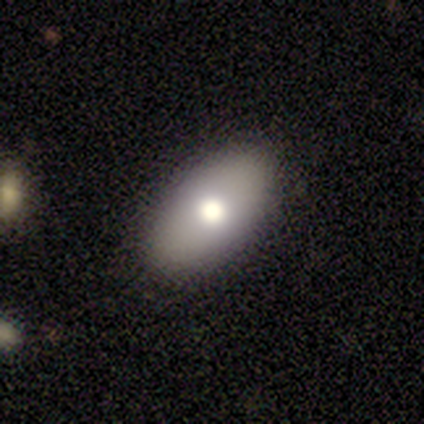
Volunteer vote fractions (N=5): A smooth galaxy with no disk features (60%) that is in between round and cigar-shaped (100%). Merging: none (80%).